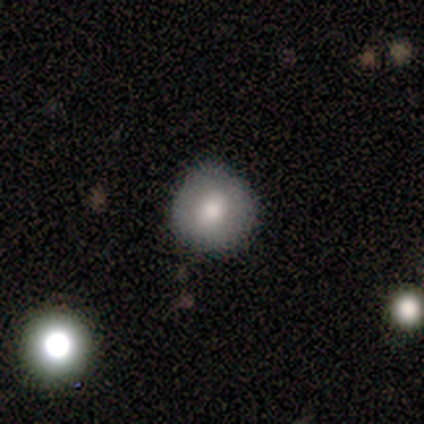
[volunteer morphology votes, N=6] Q: Smooth or featured?
A: smooth (50%); runner-up: featured or disk (33%)
Q: How rounded?
A: round (100%)
Q: Merging?
A: none (80%); runner-up: major disturbance (20%)